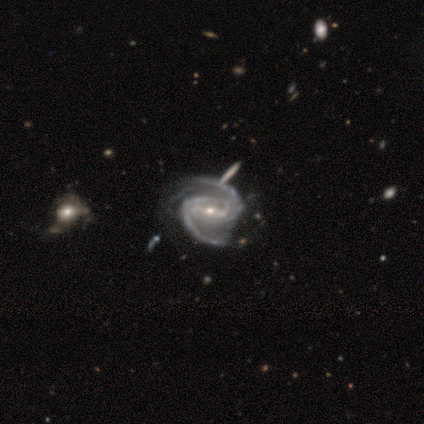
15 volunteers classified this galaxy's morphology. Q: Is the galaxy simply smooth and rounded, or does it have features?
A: featured or disk — 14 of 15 (93%).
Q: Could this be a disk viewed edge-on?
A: no — 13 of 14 (93%).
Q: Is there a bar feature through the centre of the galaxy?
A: weak — 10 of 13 (77%).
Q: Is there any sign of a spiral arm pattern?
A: yes — 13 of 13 (100%).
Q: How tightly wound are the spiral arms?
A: medium — 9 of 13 (69%).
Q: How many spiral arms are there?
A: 2 — 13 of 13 (100%).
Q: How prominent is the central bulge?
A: small — 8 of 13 (62%).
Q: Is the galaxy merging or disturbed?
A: none — 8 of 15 (53%).